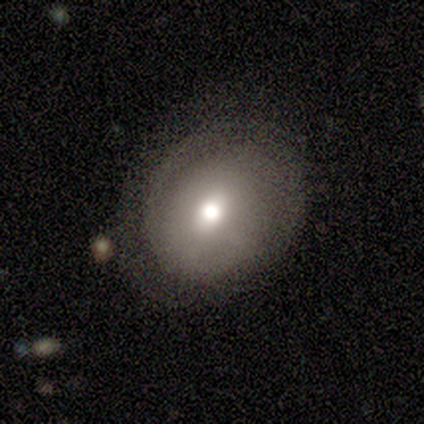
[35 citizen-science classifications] Volunteers were most divided on "how rounded": round: 52%, in between: 43%, cigar-shaped: 5%. More confident: smooth or featured — smooth (60%); merging — none (58%).